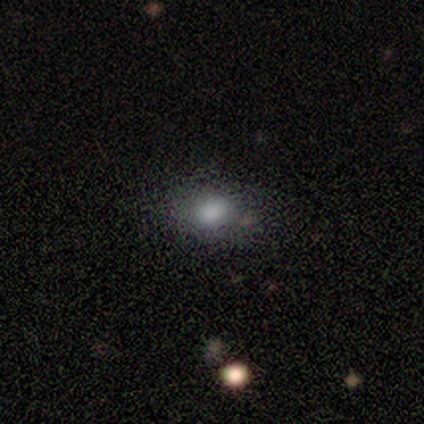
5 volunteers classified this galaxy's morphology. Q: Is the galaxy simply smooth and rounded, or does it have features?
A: smooth — 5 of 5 (100%).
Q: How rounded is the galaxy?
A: in between — 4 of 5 (80%).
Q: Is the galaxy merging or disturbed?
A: none — 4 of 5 (80%).